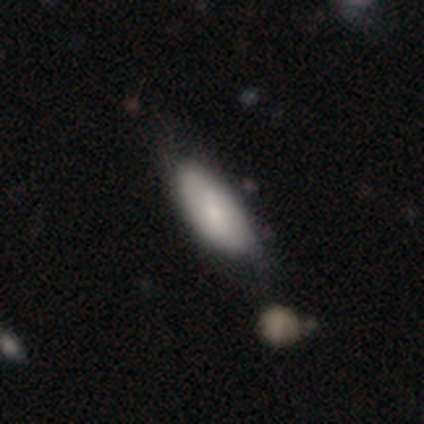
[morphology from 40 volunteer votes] smooth 72%, featured or disk 20%, star or artifact 8%. Down the decision tree: how rounded — in between (86%); merging — none (49%).